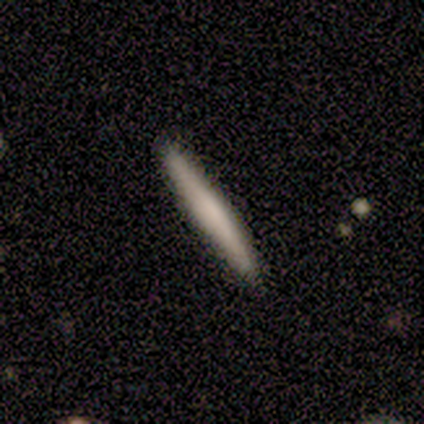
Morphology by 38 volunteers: smooth-or-featured: smooth: 68% | featured or disk: 32% | star or artifact: 0%
  how-rounded: cigar-shaped: 92% | in between: 8% | round: 0%
  merging: none: 92% | minor disturbance: 5% | major disturbance: 3% | merger: 0%